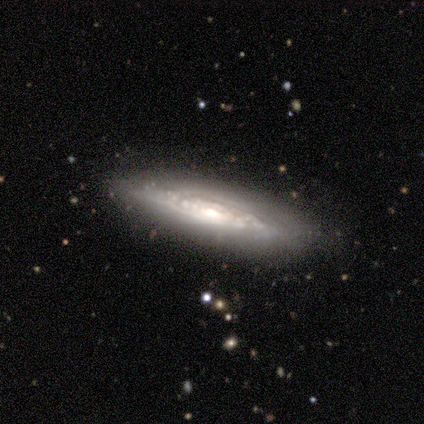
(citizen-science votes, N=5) This is clearly a featured or disk galaxy (100%). It is likely not viewed edge-on (60%). Bar: clearly no (100%). Spiral arm pattern: likely yes (67%). Spiral arm count: clearly can't tell (100%). Spiral winding: possibly tight (50%, tied with medium). Central bulge: marginally moderate (33%, tied with small and none). Merging: clearly none (100%).